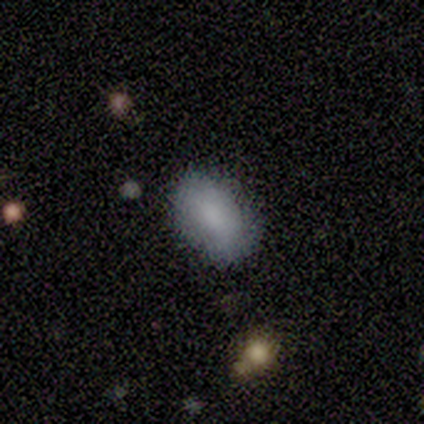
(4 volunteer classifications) A smooth galaxy with no disk features (100%) that is in between round and cigar-shaped (100%).

Vote fractions:
- Smooth or featured? smooth: 100% / featured or disk: 0% / star or artifact: 0%
- How rounded? in between: 100% / round: 0% / cigar-shaped: 0%
- Merging? none: 75% / minor disturbance: 25% / major disturbance: 0% / merger: 0%